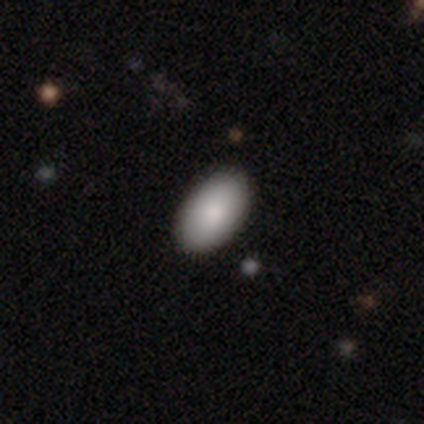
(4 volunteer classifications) Q: Smooth or featured?
A: smooth (75%); runner-up: featured or disk (25%)
Q: How rounded?
A: in between (100%)
Q: Merging?
A: none (75%); runner-up: merger (25%)